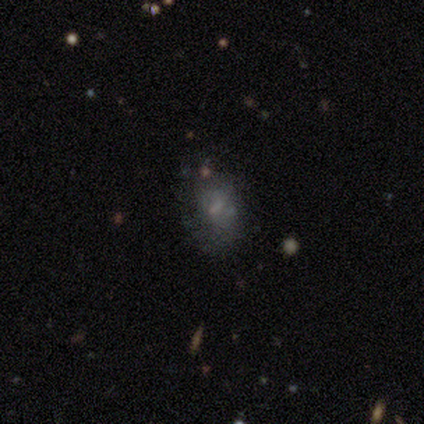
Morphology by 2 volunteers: This appears to be a featured or disk galaxy (100%) with no bar (100%), no spiral arms (100%) and a small central bulge (100%). Merging: none (100%).